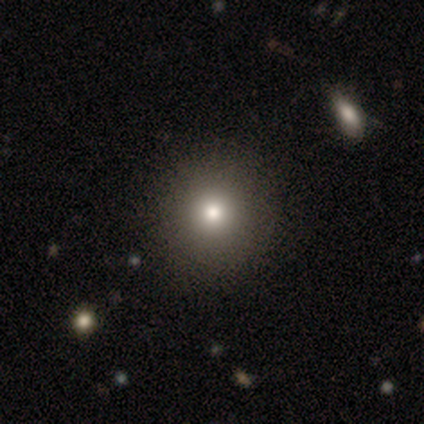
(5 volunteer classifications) smooth_or_featured: smooth (p=0.60) [alt: featured or disk p=0.20]
how_rounded: round (p=1.00)
merging: none (p=1.00)